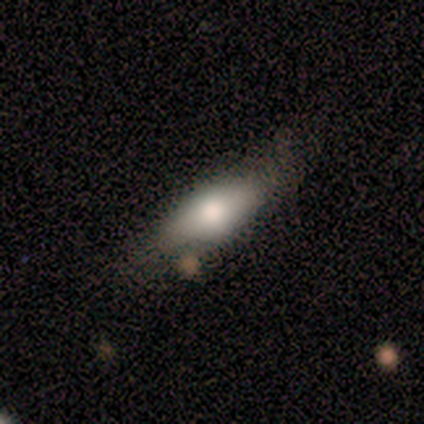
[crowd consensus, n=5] smooth 60%, featured or disk 40%, star or artifact 0%. Down the decision tree: how rounded — cigar-shaped (100%); merging — none (60%).